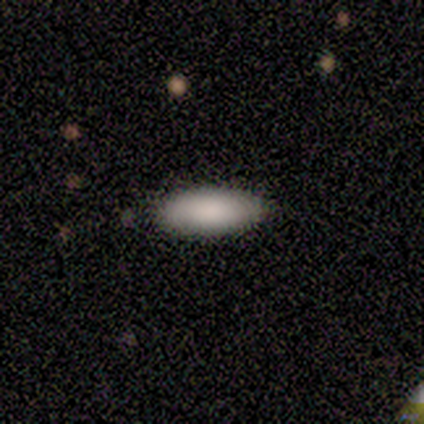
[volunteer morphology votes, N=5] A smooth galaxy with no disk features (80%) that is in between round and cigar-shaped (100%). Merging: none (60%).